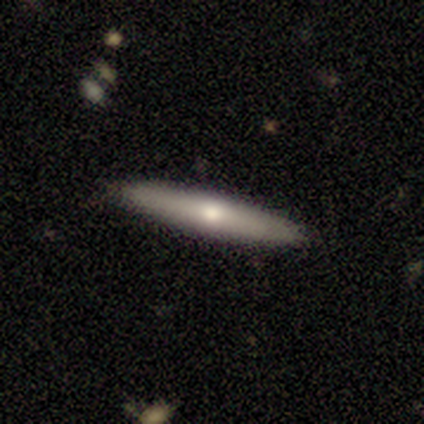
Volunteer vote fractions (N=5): smooth_or_featured: smooth (p=0.80) [alt: featured or disk p=0.20]
how_rounded: cigar-shaped (p=1.00)
merging: none (p=0.80) [alt: minor disturbance p=0.20]